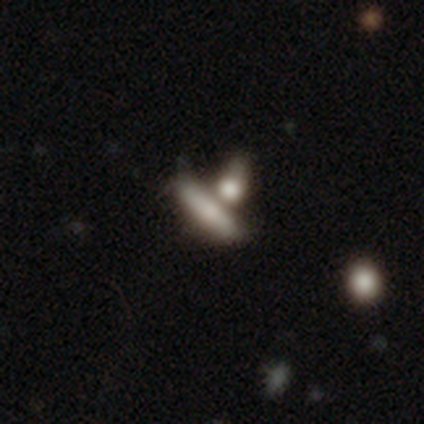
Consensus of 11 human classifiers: This is likely a smooth galaxy (73%). How rounded: likely cigar-shaped (62%). Merging: possibly merger (50%).